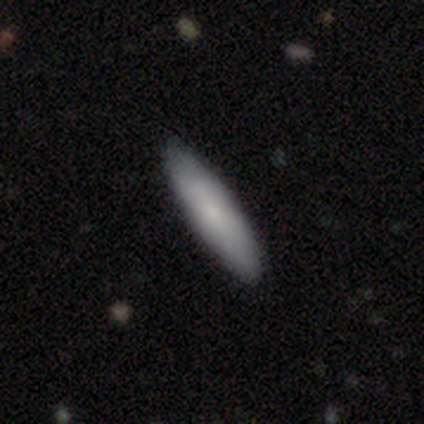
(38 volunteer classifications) This is clearly a smooth galaxy (82%). How rounded: clearly cigar-shaped (87%). Merging: clearly none (84%).